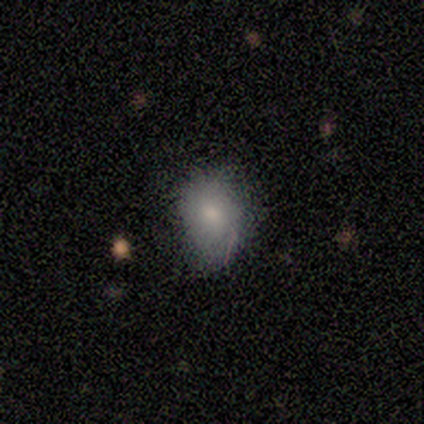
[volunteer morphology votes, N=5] A smooth galaxy with no disk features (60%) that is round (100%).

Vote fractions:
- Smooth or featured? smooth: 60% / featured or disk: 40% / star or artifact: 0%
- How rounded? round: 100% / in between: 0% / cigar-shaped: 0%
- Merging? none: 60% / minor disturbance: 40% / major disturbance: 0% / merger: 0%